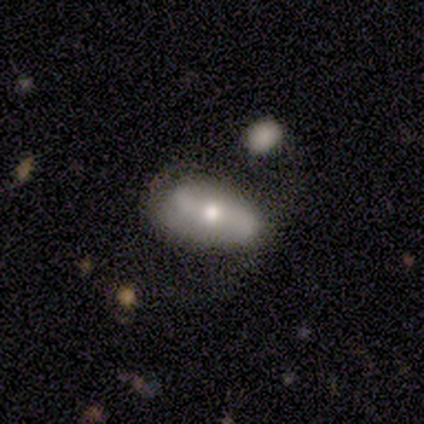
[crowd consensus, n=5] featured or disk 60%, smooth 20%, star or artifact 20%. Down the decision tree: edge-on disk — no (100%); bar — weak (67%); spiral arms — yes (67%); spiral arm count — 2 (100%); spiral winding — medium (50%, tied with loose); bulge size — moderate (67%); merging — none (75%).